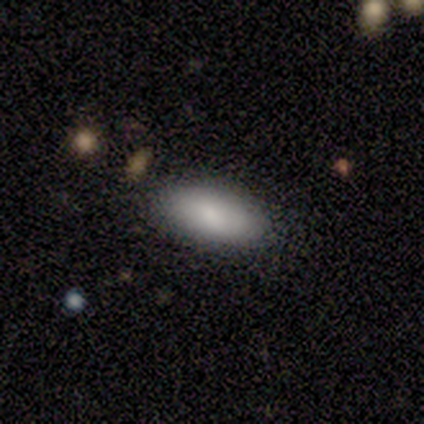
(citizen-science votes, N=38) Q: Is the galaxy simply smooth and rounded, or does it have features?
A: smooth — 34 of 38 (89%).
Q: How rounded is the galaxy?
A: in between — 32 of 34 (94%).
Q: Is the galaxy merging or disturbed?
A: none — 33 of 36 (92%).